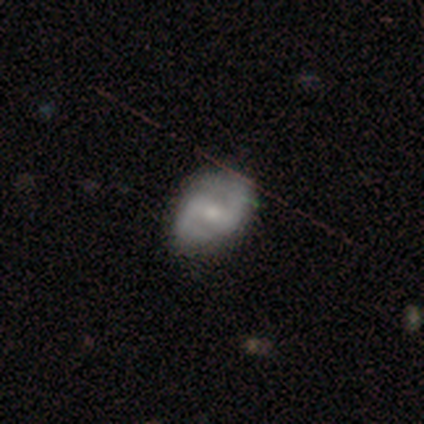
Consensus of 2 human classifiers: Smooth or featured? smooth (50%, tied with featured or disk)
How rounded? in between (100%)
Merging? none (50%, tied with minor disturbance)